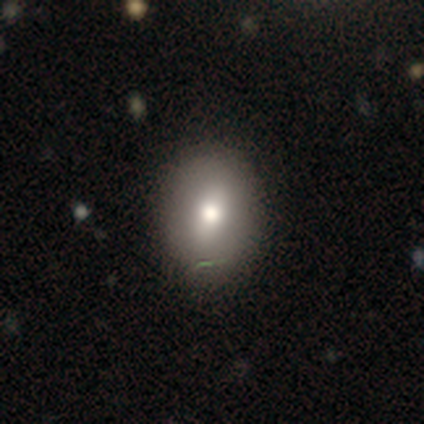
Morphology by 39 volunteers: Smooth or featured? smooth (72%)
How rounded? in between (64%)
Merging? none (77%)